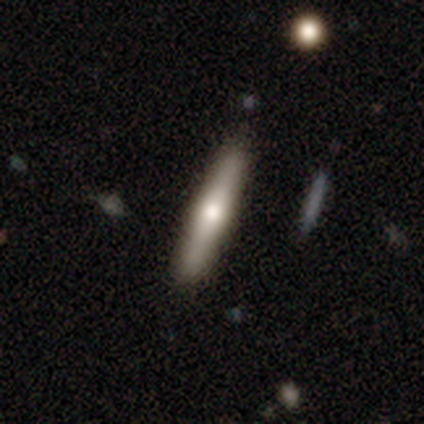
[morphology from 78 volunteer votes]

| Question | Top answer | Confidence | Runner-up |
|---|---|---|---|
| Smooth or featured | featured or disk | 49% | smooth (46%) |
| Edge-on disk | yes | 97% | no (3%) |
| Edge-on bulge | rounded | 95% | boxy (5%) |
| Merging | none | 50% | merger (3%) |